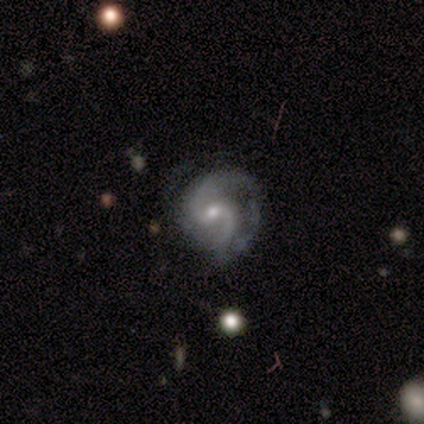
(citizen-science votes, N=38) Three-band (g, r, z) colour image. It shows a featured or disk galaxy (97%) with a weak bar (65%), 2 (89%) medium (47%) spiral arms (97%) and a small central bulge (54%). Merging: none (65%).